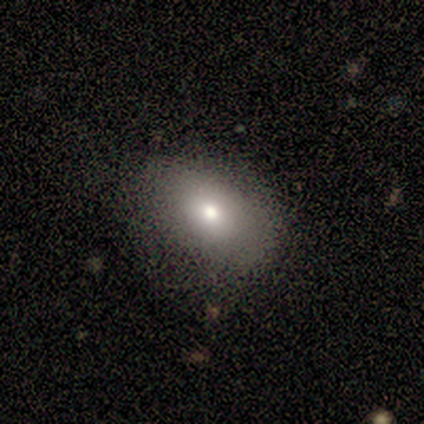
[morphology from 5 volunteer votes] Smooth or featured: smooth — 80% (featured or disk — 20%)
How rounded: in between — 75% (round — 25%)
Merging: none — 80% (major disturbance — 20%)